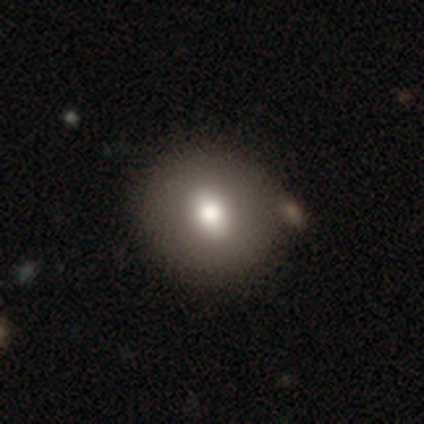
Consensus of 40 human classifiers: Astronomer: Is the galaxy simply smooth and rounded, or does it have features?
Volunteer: smooth — 78%.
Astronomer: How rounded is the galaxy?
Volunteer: round — 77%.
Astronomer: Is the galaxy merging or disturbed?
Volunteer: none — 78%.